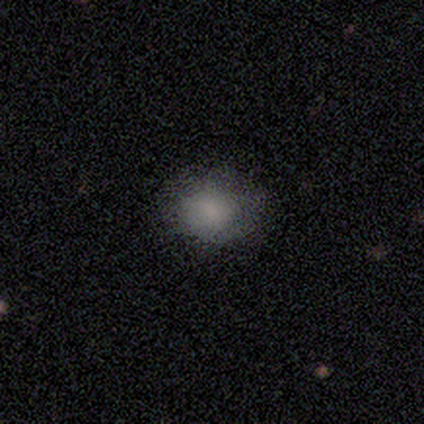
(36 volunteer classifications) A smooth galaxy with no disk features (67%) that is round (50%, tied with in between). Merging: none (45%).